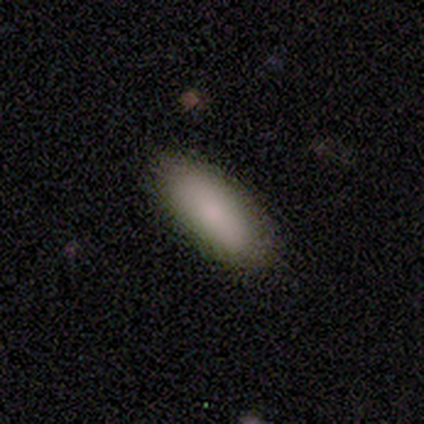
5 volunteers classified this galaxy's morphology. Smooth or featured? smooth (60%)
How rounded? in between (67%)
Merging? none (100%)